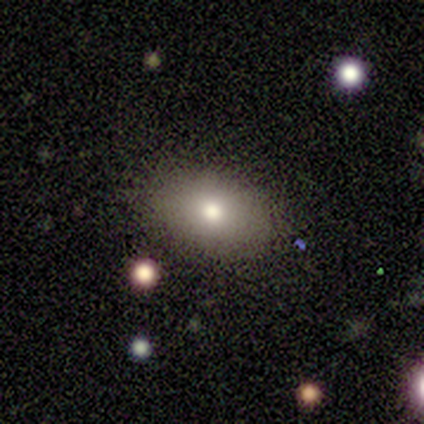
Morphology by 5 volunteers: smooth-or-featured: smooth: 40% (tied) | featured or disk: 40% (tied) | star or artifact: 20%
  how-rounded: in between: 100% | round: 0% | cigar-shaped: 0%
  merging: none: 100% | minor disturbance: 0% | major disturbance: 0% | merger: 0%